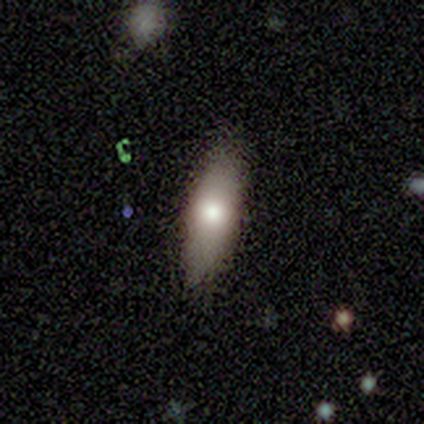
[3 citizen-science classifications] A smooth galaxy with no disk features (67%) that is cigar-shaped (100%). Merging: none (100%).